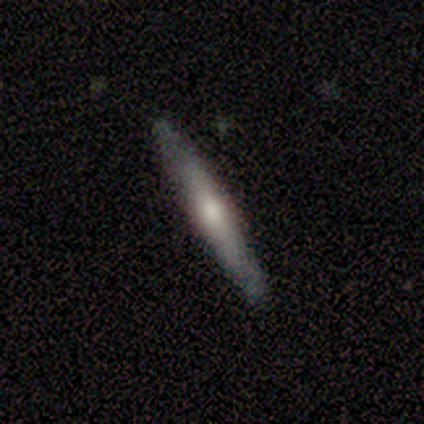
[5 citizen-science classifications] Overall: featured or disk (60%; smooth 40%). Edge-on disk: yes (100%). Edge-on bulge: rounded (67%; none 33%). Merging: none (80%).